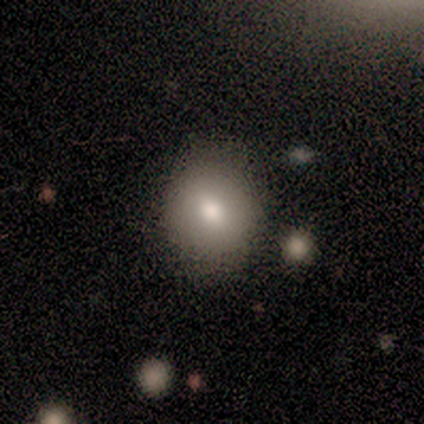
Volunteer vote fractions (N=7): This is likely a smooth galaxy (71%). How rounded: clearly round (100%). Merging: clearly none (83%).